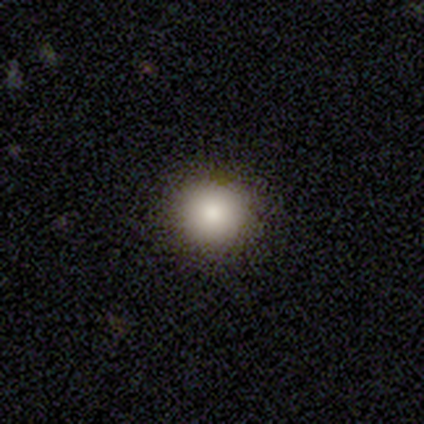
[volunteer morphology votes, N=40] Smooth or featured?
  - smooth: 90% *
  - star or artifact: 10%
  - featured or disk: 0%
How rounded?
  - round: 97% *
  - in between: 3%
  - cigar-shaped: 0%
Merging?
  - none: 97% *
  - merger: 3%
  - minor disturbance: 0%
  - major disturbance: 0%